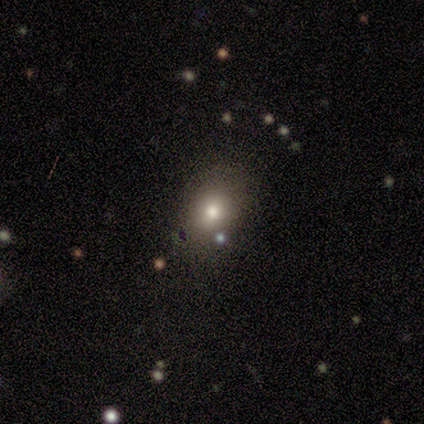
smooth_or_featured: smooth (p=0.57) [alt: star or artifact p=0.30]
how_rounded: round (p=0.59) [alt: in between p=0.41]
merging: none (p=0.76) [alt: minor disturbance p=0.19]